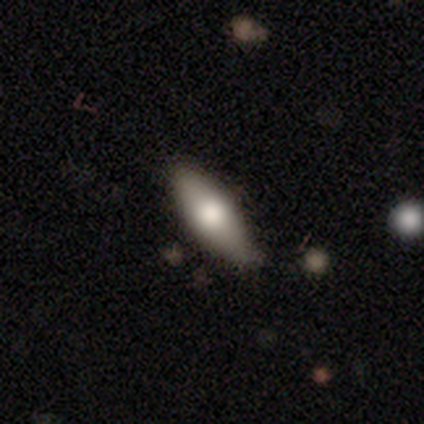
Smooth or featured? 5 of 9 (56%) said smooth. How rounded? 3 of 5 (60%) said cigar-shaped. Merging? 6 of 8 (75%) said none.